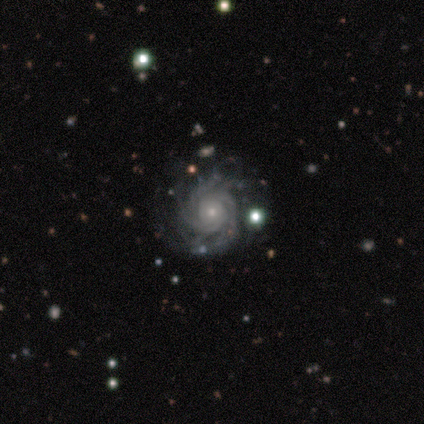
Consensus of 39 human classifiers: featured or disk 90%, star or artifact 8%, smooth 3%. Down the decision tree: edge-on disk — no (100%); bar — no (74%); spiral arms — yes (100%); spiral arm count — 4 (29%, tied with more than 4); spiral winding — tight (77%); bulge size — small (69%); merging — none (67%).